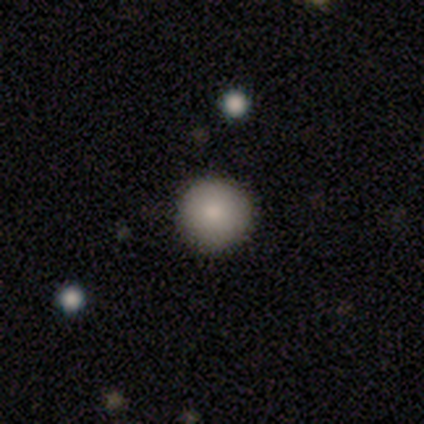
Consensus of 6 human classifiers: A smooth galaxy with no disk features (50%, tied with star or artifact) that is round (100%).

Vote fractions:
- Smooth or featured? smooth: 50% (tied) / star or artifact: 50% (tied) / featured or disk: 0%
- How rounded? round: 100% / in between: 0% / cigar-shaped: 0%
- Merging? none: 67% / minor disturbance: 33% / major disturbance: 0% / merger: 0%